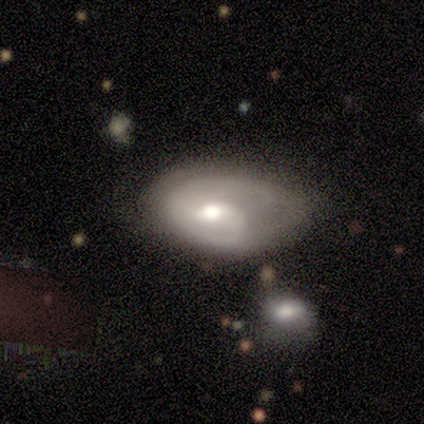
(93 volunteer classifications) smooth_or_featured: featured or disk (p=0.71) [alt: smooth p=0.25]
disk_edge_on: no (p=0.98) [alt: yes p=0.02]
bar: weak (p=0.58) [alt: no p=0.38]
has_spiral_arms: yes (p=0.86) [alt: no p=0.14]
spiral_winding: tight (p=0.45) [alt: medium p=0.36]
spiral_arm_count: 2 (p=0.55) [alt: 1 p=0.27]
bulge_size: moderate (p=0.77) [alt: large p=0.15]
merging: none (p=0.42) [alt: minor disturbance p=0.36]